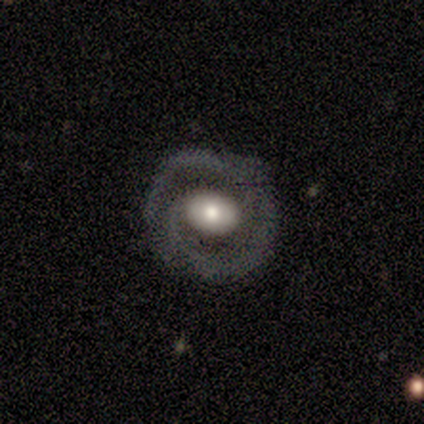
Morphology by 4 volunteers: Q: Smooth or featured?
A: featured or disk (75%); runner-up: star or artifact (25%)
Q: Edge-on disk?
A: no (100%)
Q: Bar?
A: no (67%); runner-up: weak (33%)
Q: Spiral arms?
A: yes (100%)
Q: Spiral winding?
A: tight (67%); runner-up: medium (33%)
Q: Spiral arm count?
A: 2 (100%)
Q: Bulge size?
A: moderate (100%)
Q: Merging?
A: none (100%)